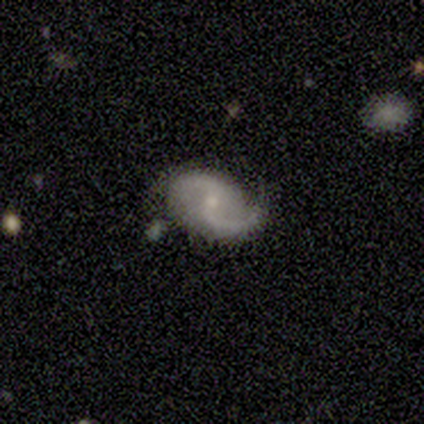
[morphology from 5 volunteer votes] smooth-or-featured: featured or disk: 100% | smooth: 0% | star or artifact: 0%
  disk-edge-on: no: 100% | yes: 0%
    bar: weak: 80% | strong: 20% | no: 0%
    has-spiral-arms: yes: 100% | no: 0%
      spiral-winding: loose: 80% | medium: 20% | tight: 0%
      spiral-arm-count: 2: 100% | 1: 0% | 3: 0% | 4: 0% | more than 4: 0% | can't tell: 0%
    bulge-size: moderate: 60% | small: 40% | dominant: 0% | large: 0% | none: 0%
  merging: none: 80% | major disturbance: 20% | minor disturbance: 0% | merger: 0%